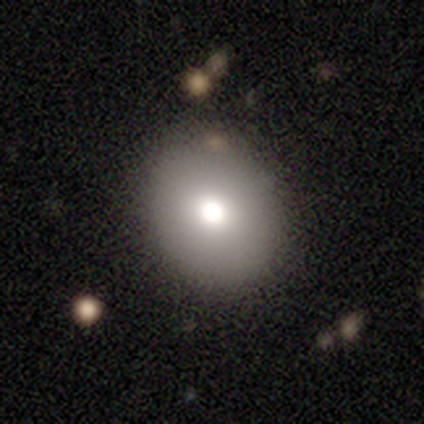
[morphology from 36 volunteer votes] Smooth or featured? smooth (83%)
How rounded? round (57%)
Merging? none (91%)